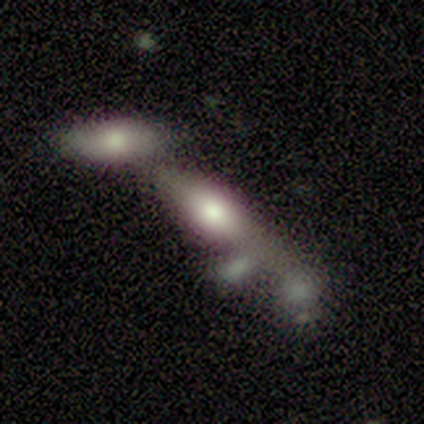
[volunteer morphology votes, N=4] A featured or disk galaxy (75%) with no bar (100%), no spiral arms (100%) and a moderate central bulge (67%). Merging: merger (75%).